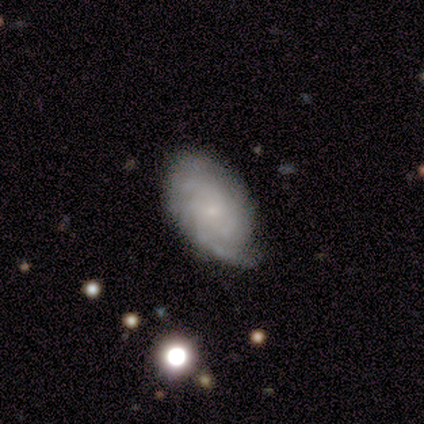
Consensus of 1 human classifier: Smooth or featured? 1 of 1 (100%) said featured or disk. Edge-on disk? 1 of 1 (100%) said no. Bar? 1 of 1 (100%) said no. Spiral arms? 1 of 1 (100%) said yes. Spiral winding? 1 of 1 (100%) said tight. Spiral arm count? 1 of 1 (100%) said can't tell. Bulge size? 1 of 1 (100%) said small. Merging? 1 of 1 (100%) said none.